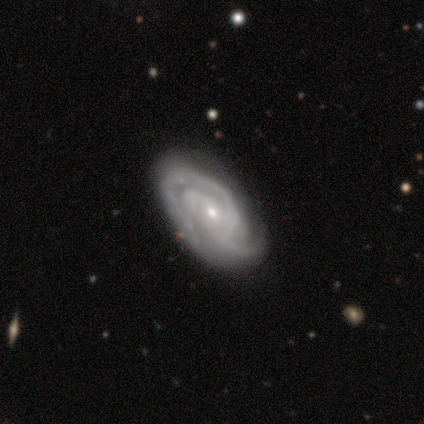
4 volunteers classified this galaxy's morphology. Volunteers were most divided on "bar": weak: 50%, strong: 25%, no: 25%. More confident: smooth or featured — featured or disk (100%); edge-on disk — no (100%); spiral arms — yes (100%); bulge size — small (100%); merging — none (100%); spiral winding — tight (75%); spiral arm count — 2 (50%).